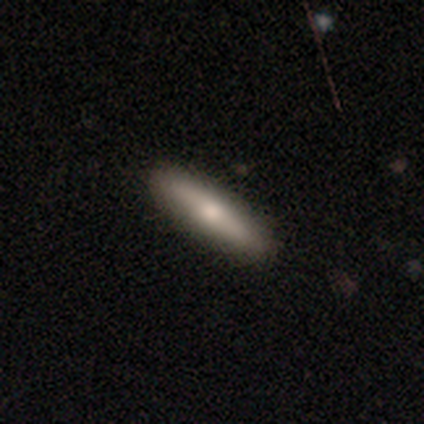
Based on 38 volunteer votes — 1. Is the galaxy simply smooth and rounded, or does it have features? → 58% smooth, 34% featured or disk, 8% star or artifact.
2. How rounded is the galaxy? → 91% cigar-shaped, 9% in between, 0% round.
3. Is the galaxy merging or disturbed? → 83% none, 9% minor disturbance, 6% major disturbance, 3% merger.